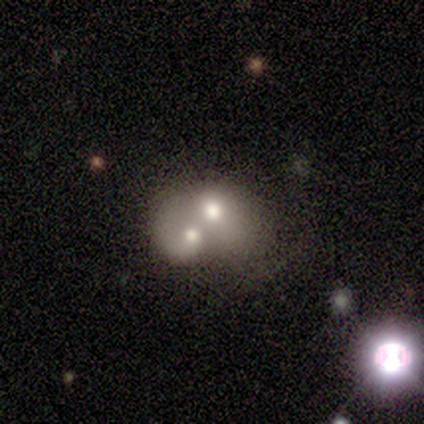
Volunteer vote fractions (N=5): This is likely a featured or disk galaxy (60%). It is clearly not viewed edge-on (100%). Bar: clearly no (100%). Spiral arm pattern: likely no (67%). Central bulge: likely moderate (67%). Merging: clearly merger (80%).